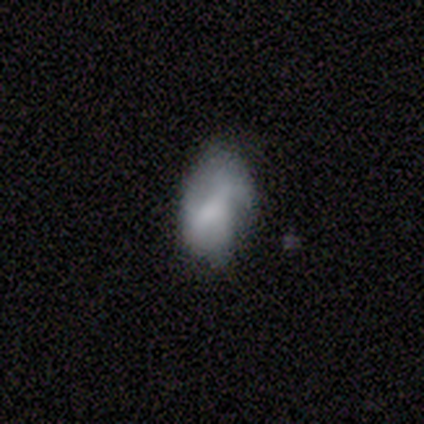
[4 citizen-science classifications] A star or artifact, not a galaxy (75%).